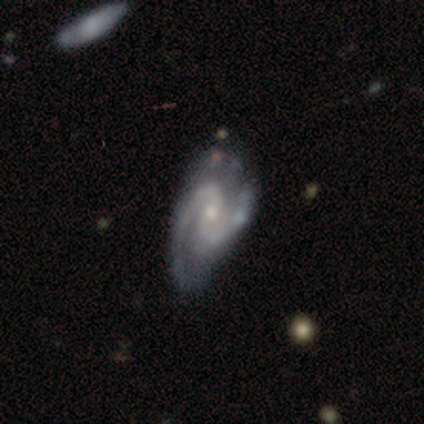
A featured or disk galaxy (95%) with a weak bar (51%), 2 (97%) medium (66%) spiral arms (100%) and a small central bulge (63%).

Vote fractions:
- Smooth or featured? featured or disk: 95% / smooth: 5% / star or artifact: 0%
- Edge-on disk? no: 97% / yes: 3%
- Bar? weak: 51% / no: 46% / strong: 3%
- Spiral arms? yes: 100% / no: 0%
- Spiral winding? medium: 66% / loose: 20% / tight: 14%
- Spiral arm count? 2: 97% / can't tell: 3% / 1: 0% / 3: 0% / 4: 0% / more than 4: 0%
- Bulge size? small: 63% / moderate: 34% / none: 3% / dominant: 0% / large: 0%
- Merging? none: 34% / minor disturbance: 29% / merger: 5% / major disturbance: 0%